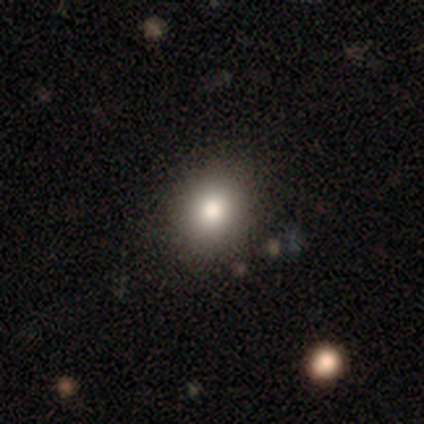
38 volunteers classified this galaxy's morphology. Smooth or featured?
  - smooth: 79% *
  - star or artifact: 16%
  - featured or disk: 5%
How rounded?
  - round: 83% *
  - in between: 17%
  - cigar-shaped: 0%
Merging?
  - none: 88% *
  - minor disturbance: 6%
  - major disturbance: 3%
  - merger: 3%